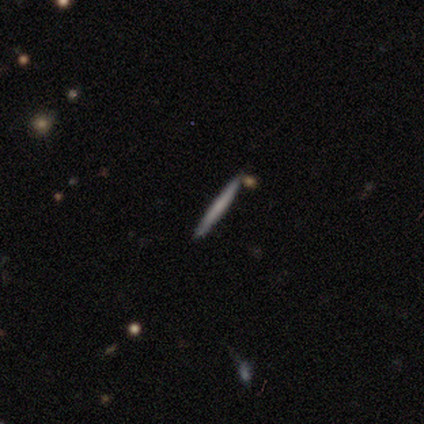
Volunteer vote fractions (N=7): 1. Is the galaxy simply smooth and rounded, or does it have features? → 57% smooth, 43% featured or disk, 0% star or artifact.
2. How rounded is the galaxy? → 100% cigar-shaped, 0% round, 0% in between.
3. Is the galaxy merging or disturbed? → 100% none, 0% minor disturbance, 0% major disturbance, 0% merger.